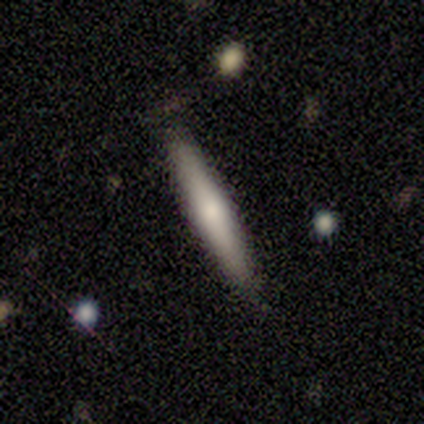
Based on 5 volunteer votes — A featured or disk galaxy (60%) viewed edge-on (67%) with a rounded central bulge (100%).

Vote fractions:
- Smooth or featured? featured or disk: 60% / smooth: 40% / star or artifact: 0%
- Edge-on disk? yes: 67% / no: 33%
- Edge-on bulge? rounded: 100% / boxy: 0% / none: 0%
- Merging? none: 80% / minor disturbance: 20% / major disturbance: 0% / merger: 0%